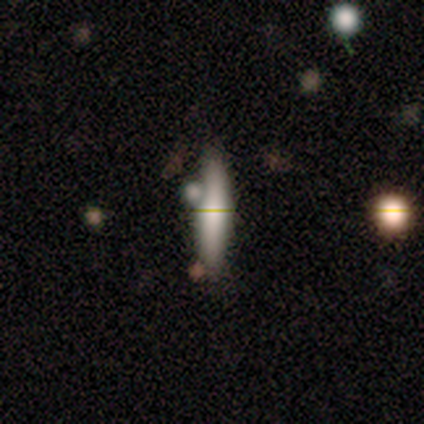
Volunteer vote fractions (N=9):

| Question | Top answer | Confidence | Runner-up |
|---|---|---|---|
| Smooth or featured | featured or disk | 56% | smooth (44%) |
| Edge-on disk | no | 60% | yes (40%) |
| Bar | no | 67% | strong (33%) |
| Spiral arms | no | 67% | yes (33%) |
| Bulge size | large | 67% | moderate (33%) |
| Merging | none | 67% | merger (22%) |